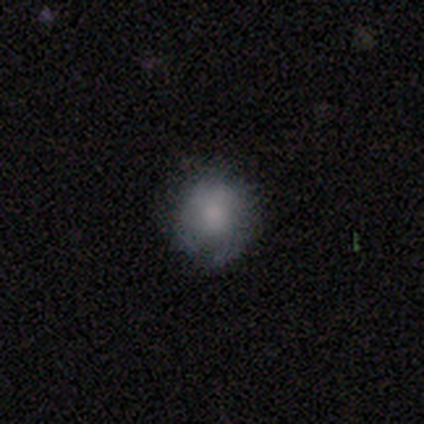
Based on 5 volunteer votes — smooth-or-featured: smooth: 100% | featured or disk: 0% | star or artifact: 0%
  how-rounded: round: 80% | in between: 20% | cigar-shaped: 0%
  merging: none: 80% | minor disturbance: 20% | major disturbance: 0% | merger: 0%